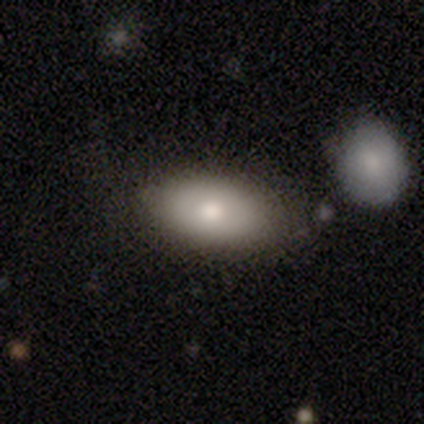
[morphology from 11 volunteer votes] type=smooth (73%); roundness=in between (100%); merging=none (67%).